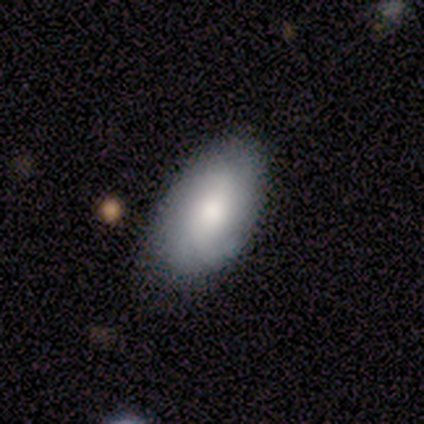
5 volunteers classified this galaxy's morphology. This is clearly a smooth galaxy (80%). How rounded: clearly in between (100%). Merging: possibly none (50%).